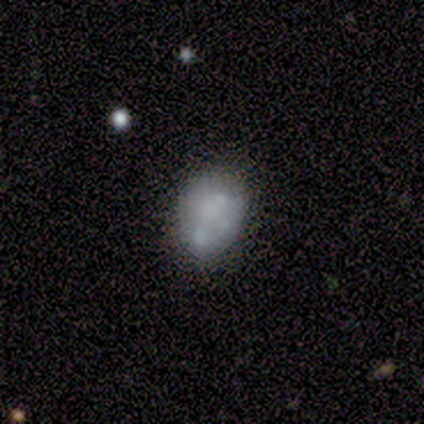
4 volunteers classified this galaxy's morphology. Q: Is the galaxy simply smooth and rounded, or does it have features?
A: featured or disk — 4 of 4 (100%).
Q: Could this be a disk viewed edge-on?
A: no — 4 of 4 (100%).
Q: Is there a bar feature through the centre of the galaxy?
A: no — 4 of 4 (100%).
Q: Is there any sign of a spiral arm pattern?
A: no — 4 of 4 (100%).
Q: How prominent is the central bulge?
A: none — 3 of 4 (75%).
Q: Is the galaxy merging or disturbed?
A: none — 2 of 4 (50%).